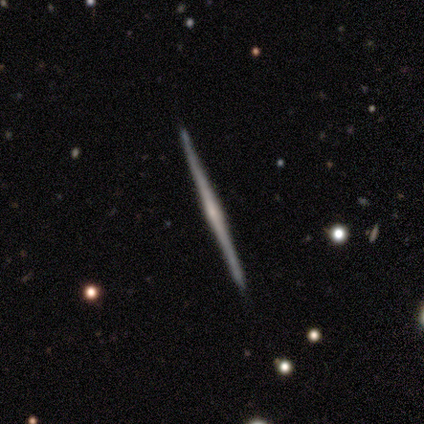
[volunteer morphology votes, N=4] Overall: featured or disk (75%). Edge-on disk: yes (100%). Edge-on bulge: none (67%; rounded 33%). Merging: none (100%).